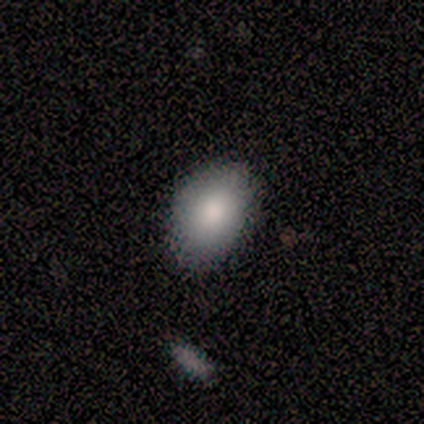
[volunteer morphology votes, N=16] Volunteers were most divided on "merging": none: 79%, minor disturbance: 21%, major disturbance: 0%, merger: 0%. More confident: how rounded — in between (85%); smooth or featured — smooth (81%).